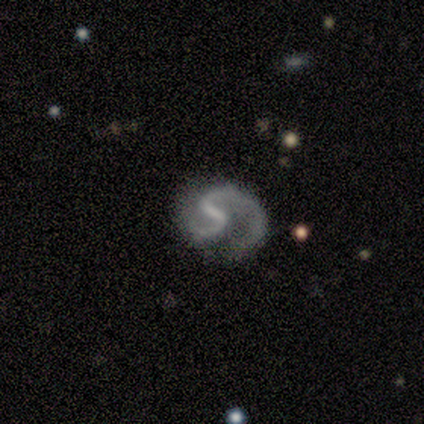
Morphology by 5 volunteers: type=featured or disk (80%); edge-on=no (100%); bar=strong (75%); spiral arms=yes (100%); winding=medium (75%); arm count=2 (100%); bulge=small (50%, tied with none); merging=none (75%).